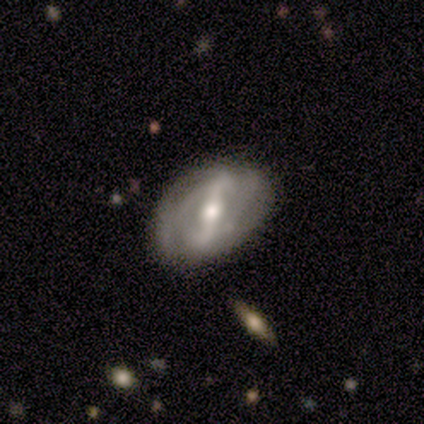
Q: Smooth or featured?
A: featured or disk (100%)
Q: Edge-on disk?
A: no (100%)
Q: Bar?
A: strong (100%)
Q: Spiral arms?
A: yes (60%); runner-up: no (40%)
Q: Spiral winding?
A: tight (33%); tied with: medium (33%); loose (33%)
Q: Spiral arm count?
A: can't tell (67%); runner-up: 2 (33%)
Q: Bulge size?
A: moderate (60%); runner-up: large (20%)
Q: Merging?
A: none (80%); runner-up: minor disturbance (20%)